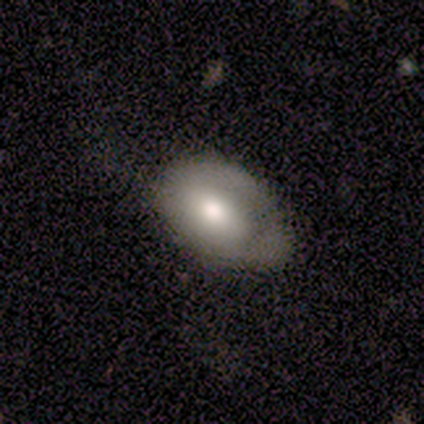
This is clearly a smooth galaxy (80%). How rounded: clearly in between (100%). Merging: clearly none (100%).